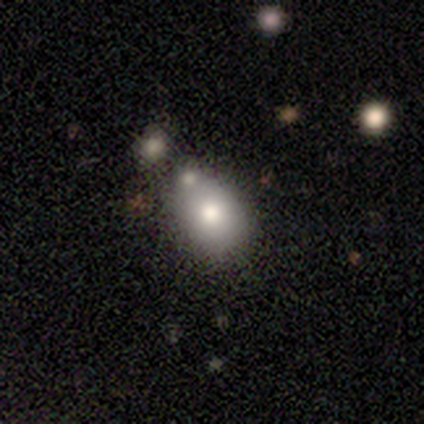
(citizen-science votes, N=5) This is likely a smooth galaxy (60%). How rounded: likely in between (67%). Merging: possibly none (50%, tied with minor disturbance).